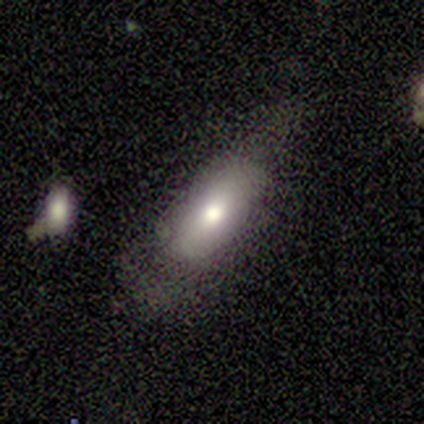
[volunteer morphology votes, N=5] Smooth or featured?
  - smooth: 40% * (tied)
  - star or artifact: 40% * (tied)
  - featured or disk: 20%
How rounded?
  - in between: 100% *
  - round: 0%
  - cigar-shaped: 0%
Merging?
  - none: 67% *
  - minor disturbance: 33%
  - major disturbance: 0%
  - merger: 0%